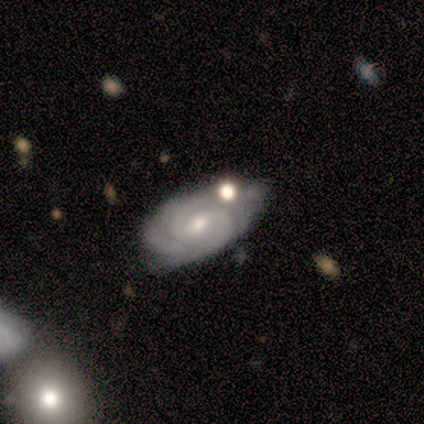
Q: Smooth or featured?
A: featured or disk (100%)
Q: Edge-on disk?
A: no (100%)
Q: Bar?
A: no (60%); runner-up: weak (40%)
Q: Spiral arms?
A: yes (100%)
Q: Spiral winding?
A: tight (100%)
Q: Spiral arm count?
A: 2 (60%); runner-up: 4 (20%)
Q: Bulge size?
A: small (60%); runner-up: moderate (40%)
Q: Merging?
A: none (40%); tied with: minor disturbance (40%)